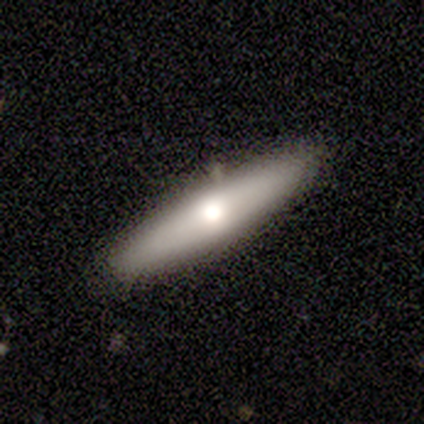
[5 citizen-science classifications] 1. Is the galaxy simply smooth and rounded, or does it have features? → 60% smooth, 40% featured or disk, 0% star or artifact.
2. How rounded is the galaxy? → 100% cigar-shaped, 0% round, 0% in between.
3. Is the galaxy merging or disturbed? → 80% none, 20% minor disturbance, 0% major disturbance, 0% merger.